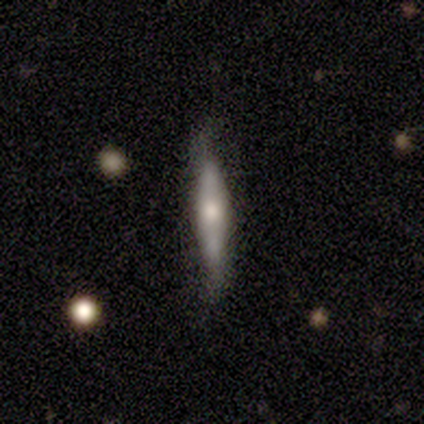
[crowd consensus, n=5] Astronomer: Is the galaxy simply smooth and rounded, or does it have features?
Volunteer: featured or disk — 60% (runner-up: smooth, 40%).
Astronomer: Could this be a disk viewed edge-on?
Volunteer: yes — 67%.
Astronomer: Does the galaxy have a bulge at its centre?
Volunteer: rounded — 100%.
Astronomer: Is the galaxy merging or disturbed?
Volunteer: none — 60% (runner-up: minor disturbance, 40%).